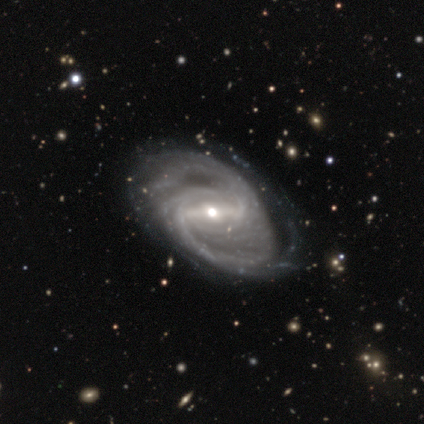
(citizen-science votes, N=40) smooth-or-featured: featured or disk: 98% | smooth: 2% | star or artifact: 0%
  disk-edge-on: no: 100% | yes: 0%
    bar: strong: 72% | weak: 15% | no: 13%
    has-spiral-arms: yes: 97% | no: 3%
      spiral-winding: tight: 53% | medium: 29% | loose: 18%
      spiral-arm-count: 2: 61% | can't tell: 13% | 3: 11% | more than 4: 11% | 1: 3% | 4: 3%
    bulge-size: moderate: 51% | small: 44% | dominant: 3% | large: 3% | none: 0%
  merging: none: 48% | minor disturbance: 18% | major disturbance: 10% | merger: 5%